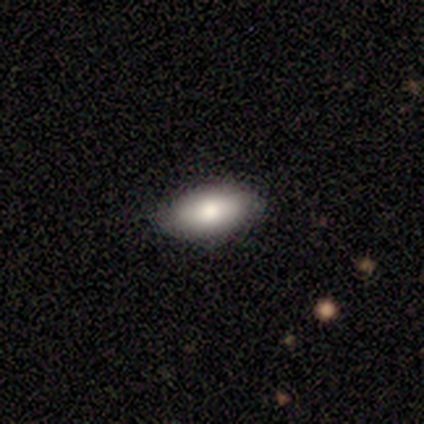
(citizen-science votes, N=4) smooth 100%, featured or disk 0%, star or artifact 0%. Down the decision tree: how rounded — in between (100%); merging — none (100%).